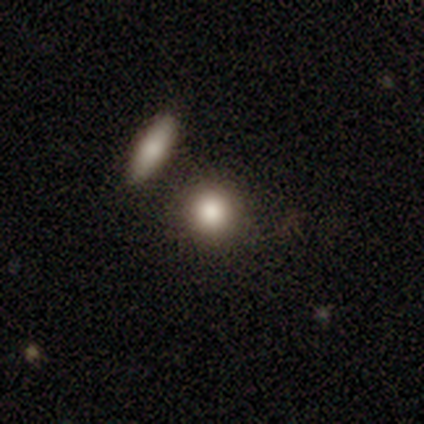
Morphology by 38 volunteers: A smooth galaxy with no disk features (79%) that is round (93%).

Vote fractions:
- Smooth or featured? smooth: 79% / featured or disk: 16% / star or artifact: 5%
- How rounded? round: 93% / in between: 3% / cigar-shaped: 3%
- Merging? none: 75% / major disturbance: 11% / merger: 11% / minor disturbance: 3%